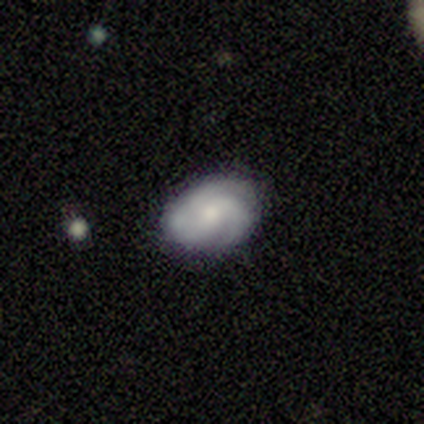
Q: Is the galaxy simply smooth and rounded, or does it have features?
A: featured or disk — 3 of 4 (75%).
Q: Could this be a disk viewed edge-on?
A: no — 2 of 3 (67%).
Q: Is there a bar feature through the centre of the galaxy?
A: weak — 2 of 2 (100%).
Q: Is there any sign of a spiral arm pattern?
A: yes — 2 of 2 (100%).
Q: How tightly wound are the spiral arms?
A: tight — 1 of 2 (50%, tied with medium).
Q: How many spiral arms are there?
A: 3 — 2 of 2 (100%).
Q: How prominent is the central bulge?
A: moderate — 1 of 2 (50%, tied with small).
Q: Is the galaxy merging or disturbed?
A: none — 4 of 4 (100%).